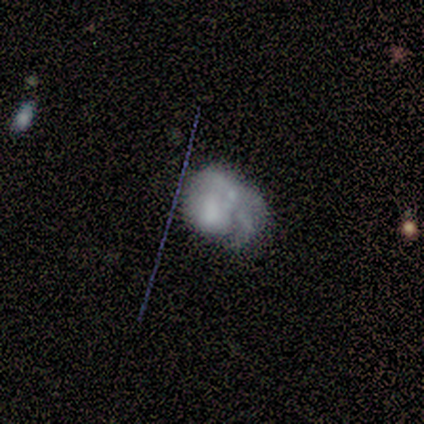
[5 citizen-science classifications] Overall: featured or disk (60%; smooth 40%). Edge-on disk: no (100%). Bar: no (100%). Spiral arms: yes (67%; no 33%). Spiral arm count: 2 (50%, tied with can't tell). Spiral winding: tight (50%, tied with loose). Bulge size: moderate (33%, tied with small and none). Merging: minor disturbance (60%; none 20%).